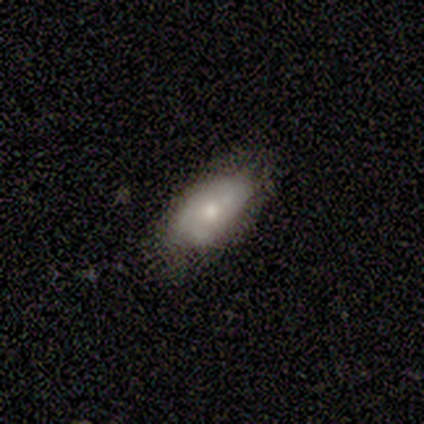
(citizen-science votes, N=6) smooth 83%, featured or disk 17%, star or artifact 0%. Down the decision tree: how rounded — in between (100%); merging — none (50%, tied with minor disturbance).